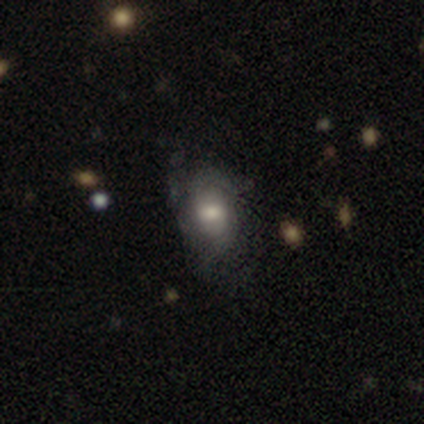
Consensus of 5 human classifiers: Smooth or featured? 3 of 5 (60%) said smooth. How rounded? 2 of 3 (67%) said in between. Merging? 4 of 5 (80%) said none.